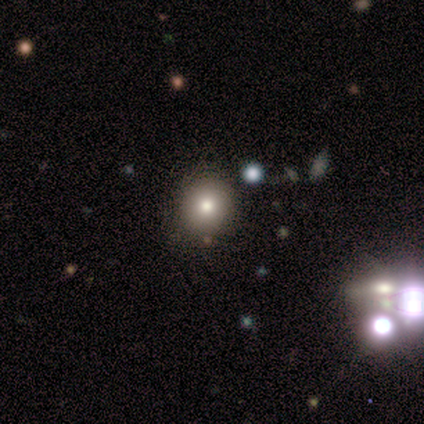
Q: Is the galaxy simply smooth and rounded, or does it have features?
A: smooth — 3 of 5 (60%).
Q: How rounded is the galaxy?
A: round — 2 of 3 (67%).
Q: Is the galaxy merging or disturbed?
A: none — 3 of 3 (100%).